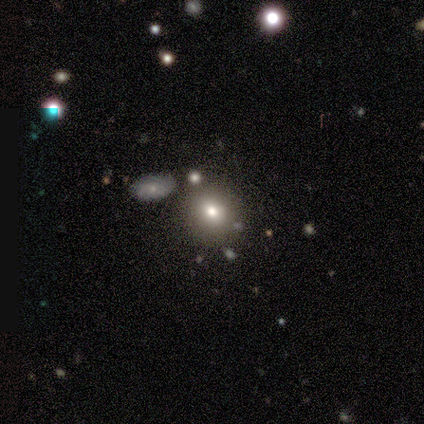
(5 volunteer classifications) Morphology: type=star or artifact (60%).